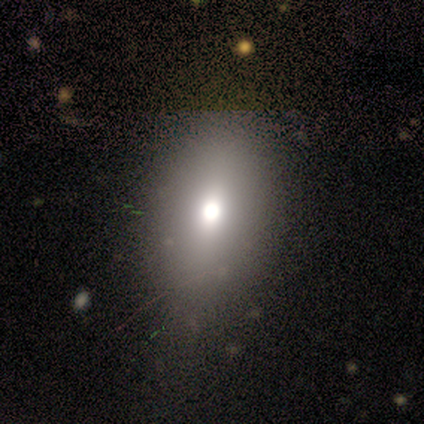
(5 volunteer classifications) Volunteers were most divided on "how rounded" (2-way tie): round: 50%, in between: 50%, cigar-shaped: 0%. More confident: merging — none (100%); smooth or featured — smooth (80%).